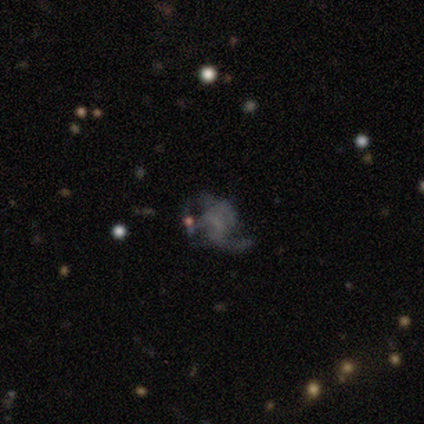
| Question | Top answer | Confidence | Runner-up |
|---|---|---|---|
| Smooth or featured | featured or disk | 67% | smooth (25%) |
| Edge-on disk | no | 100% | — |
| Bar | no | 75% | weak (25%) |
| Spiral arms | yes | 62% | no (38%) |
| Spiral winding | medium | 60% | tight (20%) |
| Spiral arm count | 2 | 80% | 1 (20%) |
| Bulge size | none | 62% | large (12%) |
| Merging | none | 64% | major disturbance (27%) |